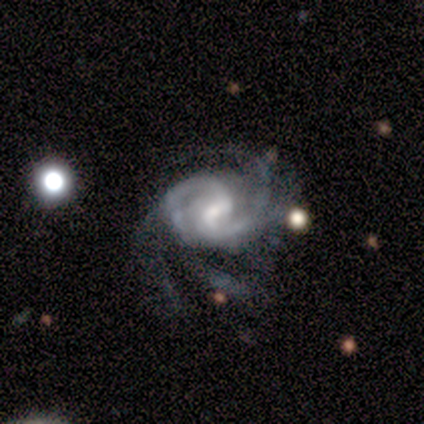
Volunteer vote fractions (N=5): Smooth or featured?
  - featured or disk: 100% *
  - smooth: 0%
  - star or artifact: 0%
Edge-on disk?
  - no: 100% *
  - yes: 0%
Bar?
  - weak: 100% *
  - strong: 0%
  - no: 0%
Spiral arms?
  - yes: 100% *
  - no: 0%
Spiral winding?
  - tight: 40% * (tied)
  - medium: 40% * (tied)
  - loose: 20%
Spiral arm count?
  - 2: 40% *
  - 3: 20%
  - more than 4: 20%
  - can't tell: 20%
  - 1: 0%
  - 4: 0%
Bulge size?
  - small: 100% *
  - dominant: 0%
  - large: 0%
  - moderate: 0%
  - none: 0%
Merging?
  - none: 80% *
  - minor disturbance: 20%
  - major disturbance: 0%
  - merger: 0%